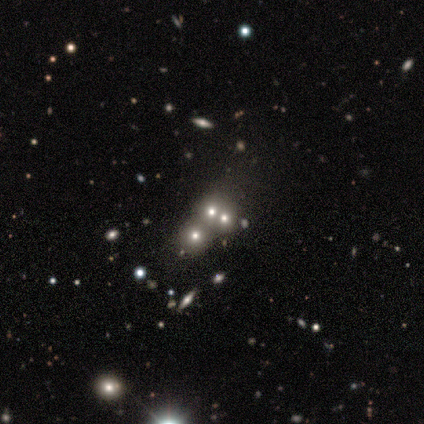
Q: Smooth or featured?
A: star or artifact (60%); runner-up: smooth (20%)